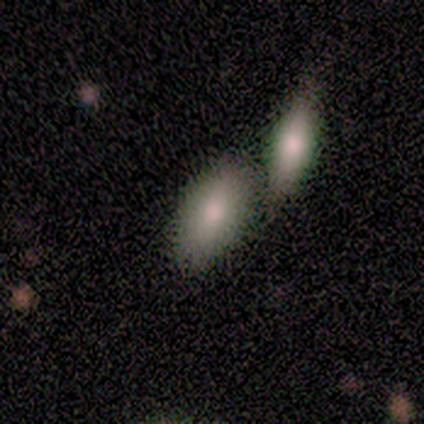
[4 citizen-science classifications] smooth_or_featured: smooth (p=1.00)
how_rounded: in between (p=0.50) [tied with: cigar-shaped p=0.50]
merging: merger (p=0.50) [alt: none p=0.25]